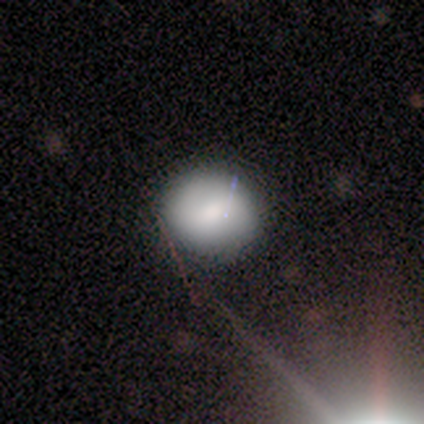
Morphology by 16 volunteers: smooth 81%, featured or disk 12%, star or artifact 6%. Down the decision tree: how rounded — round (85%); merging — none (80%).